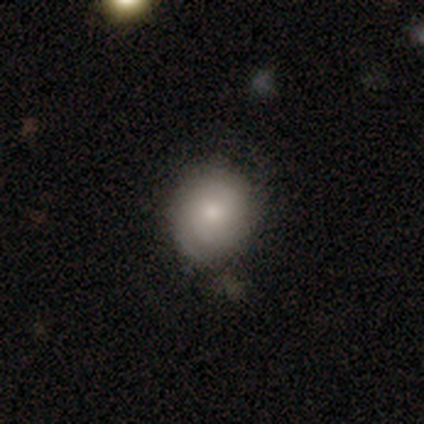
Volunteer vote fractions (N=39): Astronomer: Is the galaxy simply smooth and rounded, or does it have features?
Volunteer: smooth — 72%.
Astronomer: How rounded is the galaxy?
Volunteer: round — 86%.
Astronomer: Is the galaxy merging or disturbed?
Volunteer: none — 64%.